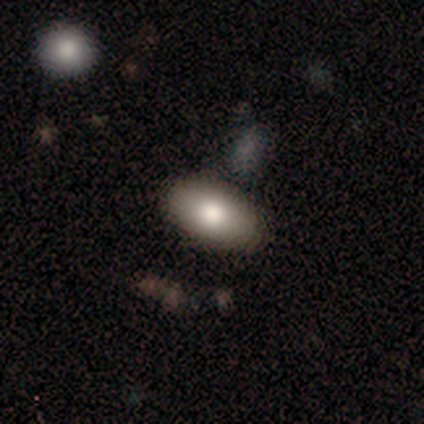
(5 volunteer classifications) Smooth or featured? 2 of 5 (40%, tied with featured or disk) said smooth. How rounded? 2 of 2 (100%) said in between. Merging? 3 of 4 (75%) said none.